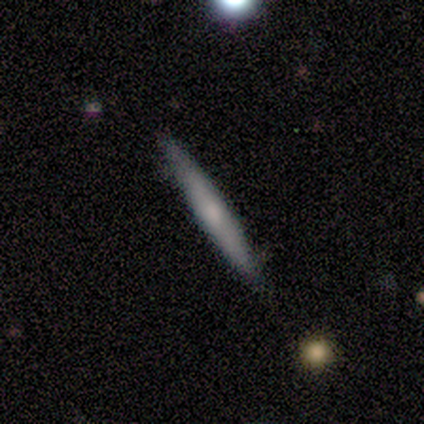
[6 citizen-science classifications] Overall: smooth (50%, tied with featured or disk). How rounded: cigar-shaped (100%). Merging: none (83%).